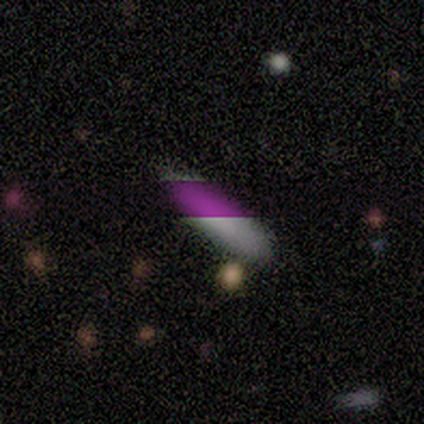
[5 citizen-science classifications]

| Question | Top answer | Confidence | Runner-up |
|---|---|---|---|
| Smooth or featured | smooth | 80% | star or artifact (20%) |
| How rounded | in between | 50% | tied: cigar-shaped (50%) |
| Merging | none | 100% | — |